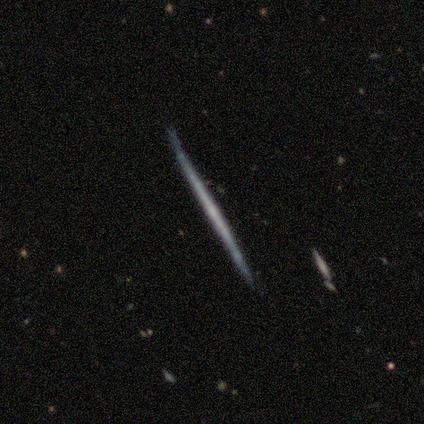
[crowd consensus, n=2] Smooth or featured: smooth — 50% (tied with featured or disk — 50%)
How rounded: cigar-shaped — 100%
Merging: none — 100%